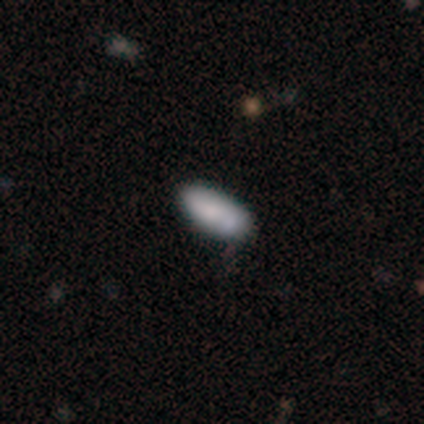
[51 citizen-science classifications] Smooth or featured? smooth (73%)
How rounded? in between (92%)
Merging? none (76%)